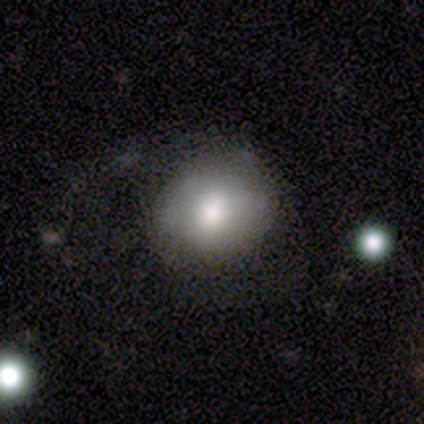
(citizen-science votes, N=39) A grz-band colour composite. It shows a smooth galaxy with no disk features (64%) that is round (80%). Merging: none (43%).